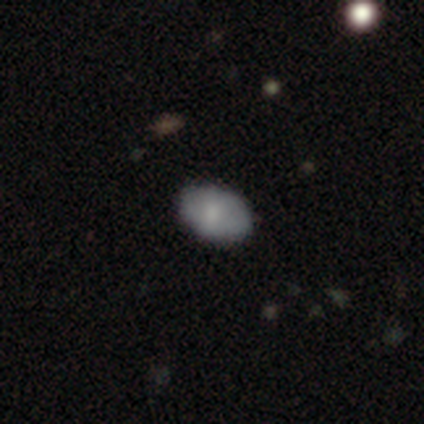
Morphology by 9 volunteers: smooth_or_featured: smooth (p=0.78) [alt: featured or disk p=0.22]
how_rounded: in between (p=0.86) [alt: round p=0.14]
merging: none (p=0.67) [alt: minor disturbance p=0.33]